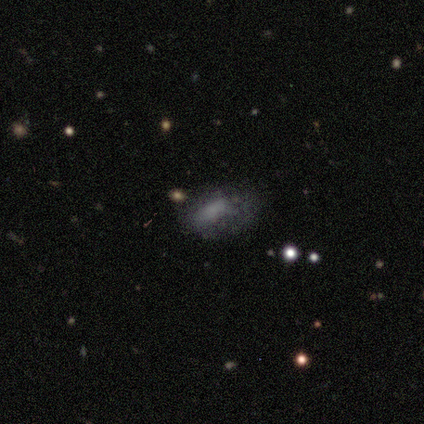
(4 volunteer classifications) A smooth galaxy with no disk features (75%) that is cigar-shaped (67%). Merging: minor disturbance (50%).